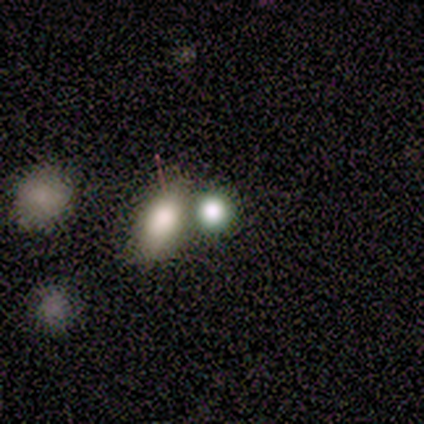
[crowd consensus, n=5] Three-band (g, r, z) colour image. It shows a smooth galaxy with no disk features (60%) that is round (100%). Merging: merger (60%).